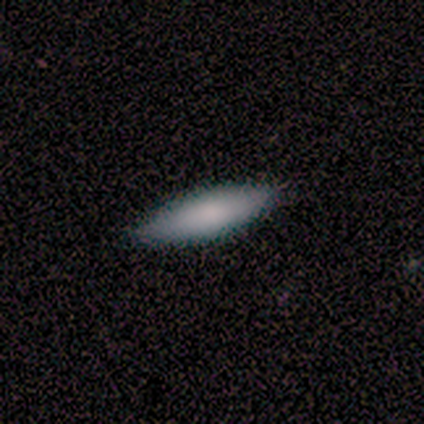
A smooth galaxy with no disk features (100%) that is in between round and cigar-shaped (60%).

Vote fractions:
- Smooth or featured? smooth: 100% / featured or disk: 0% / star or artifact: 0%
- How rounded? in between: 60% / cigar-shaped: 40% / round: 0%
- Merging? none: 100% / minor disturbance: 0% / major disturbance: 0% / merger: 0%